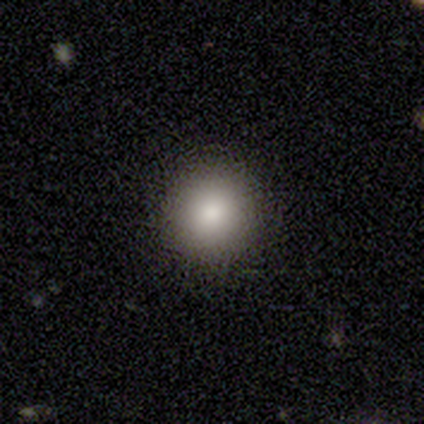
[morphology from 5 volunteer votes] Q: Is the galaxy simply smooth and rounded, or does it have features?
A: smooth — 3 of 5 (60%).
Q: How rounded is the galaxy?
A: round — 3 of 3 (100%).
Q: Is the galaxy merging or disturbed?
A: none — 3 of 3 (100%).